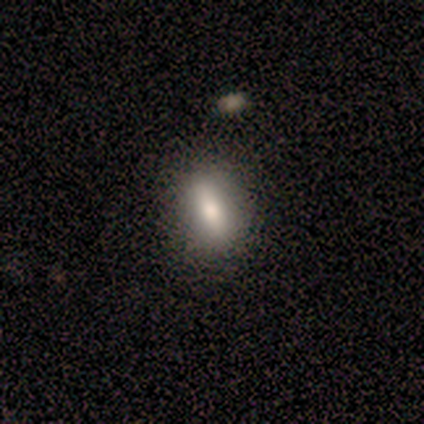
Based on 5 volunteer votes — This appears to be a smooth galaxy with no disk features (60%) that is round (33%, tied with in between and cigar-shaped). Merging: none (100%).